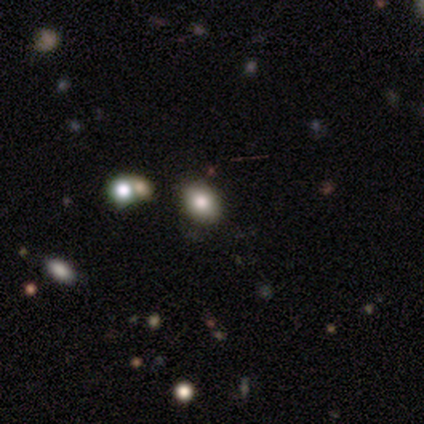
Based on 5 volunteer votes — Smooth or featured? smooth (80%)
How rounded? in between (75%)
Merging? none (100%)